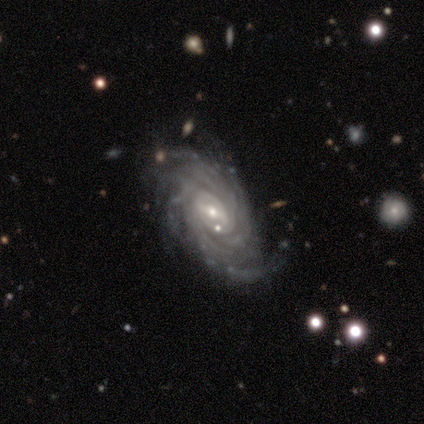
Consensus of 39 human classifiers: Q: Smooth or featured?
A: featured or disk (87%); runner-up: smooth (10%)
Q: Edge-on disk?
A: no (94%); runner-up: yes (6%)
Q: Bar?
A: weak (50%); runner-up: strong (31%)
Q: Spiral arms?
A: yes (97%); runner-up: no (3%)
Q: Spiral winding?
A: tight (84%); runner-up: medium (16%)
Q: Spiral arm count?
A: can't tell (35%); runner-up: more than 4 (32%)
Q: Bulge size?
A: small (59%); runner-up: moderate (38%)
Q: Merging?
A: none (68%); runner-up: minor disturbance (16%)